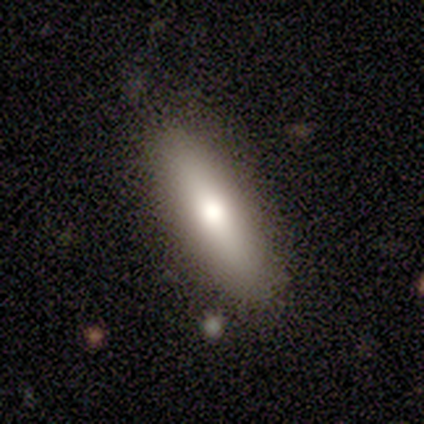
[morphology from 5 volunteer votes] type=featured or disk (100%); edge-on=yes (60%); edge-on bulge=rounded (67%); merging=none (100%).